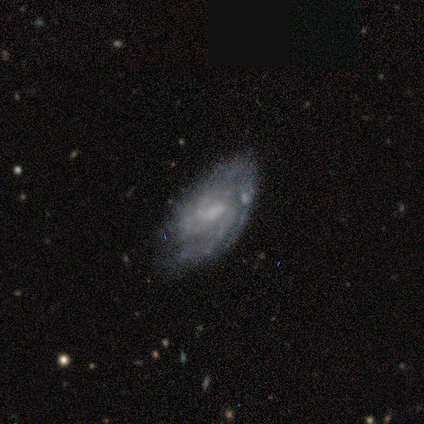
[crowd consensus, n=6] Q: Smooth or featured?
A: featured or disk (100%)
Q: Edge-on disk?
A: no (83%); runner-up: yes (17%)
Q: Bar?
A: weak (40%); tied with: no (40%)
Q: Spiral arms?
A: yes (80%); runner-up: no (20%)
Q: Spiral winding?
A: medium (75%); runner-up: tight (25%)
Q: Spiral arm count?
A: 2 (50%); runner-up: more than 4 (25%)
Q: Bulge size?
A: small (100%)
Q: Merging?
A: none (50%); tied with: minor disturbance (50%)